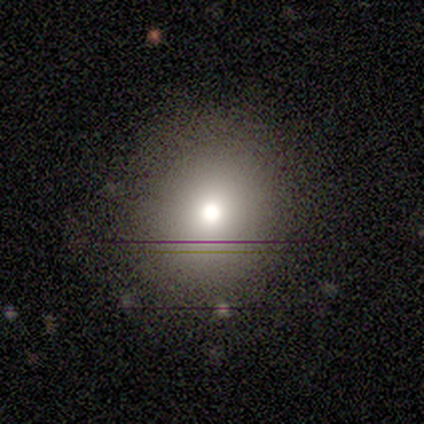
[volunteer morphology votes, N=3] Smooth or featured? 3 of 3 (100%) said smooth. How rounded? 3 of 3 (100%) said round. Merging? 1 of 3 (33%, tied with minor disturbance and major disturbance) said none.